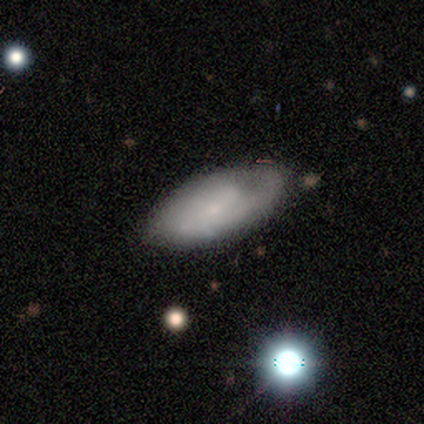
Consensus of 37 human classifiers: Overall: featured or disk (54%; smooth 32%). Edge-on disk: no (90%). Bar: no (72%). Spiral arms: yes (83%). Spiral arm count: can't tell (53%; 2 33%). Spiral winding: medium (60%; tight 33%). Bulge size: small (78%). Merging: none (62%; minor disturbance 28%).